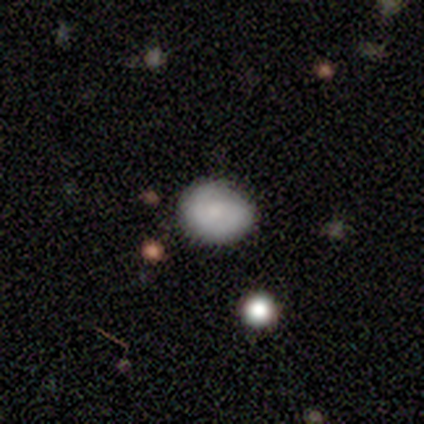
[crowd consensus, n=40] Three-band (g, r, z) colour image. It shows a smooth galaxy with no disk features (62%) that is round (72%). Merging: none (74%).